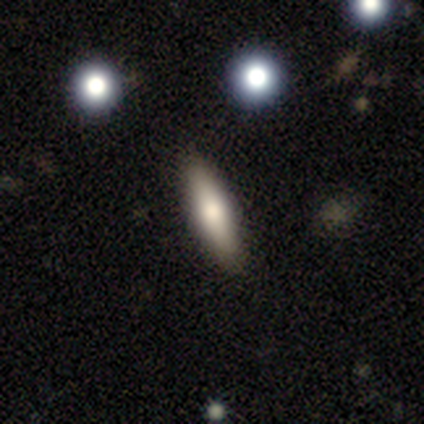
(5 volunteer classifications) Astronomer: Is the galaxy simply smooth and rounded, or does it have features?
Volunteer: smooth — 100%.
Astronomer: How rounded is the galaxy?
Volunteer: cigar-shaped — 60%.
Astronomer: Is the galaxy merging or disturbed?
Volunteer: none — 60%.